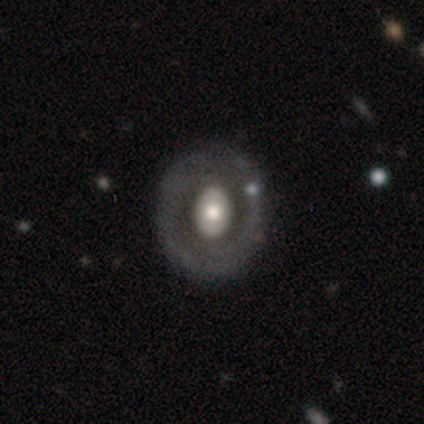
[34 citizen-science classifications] Smooth or featured? 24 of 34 (71%) said featured or disk. Edge-on disk? 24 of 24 (100%) said no. Bar? 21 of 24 (88%) said no. Spiral arms? 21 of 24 (88%) said no. Bulge size? 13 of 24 (54%) said moderate. Merging? 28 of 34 (82%) said none.